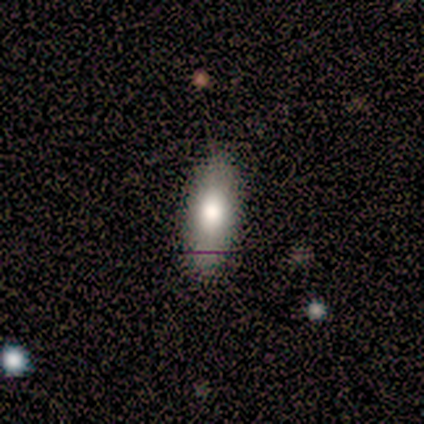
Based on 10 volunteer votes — Q: Smooth or featured?
A: smooth (100%)
Q: How rounded?
A: in between (80%); runner-up: cigar-shaped (20%)
Q: Merging?
A: none (100%)